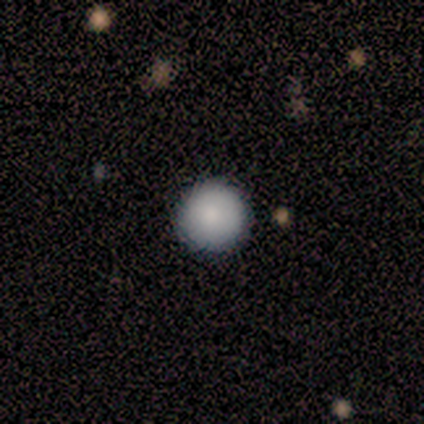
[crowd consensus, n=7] Overall: smooth (86%). How rounded: round (100%). Merging: none (86%).